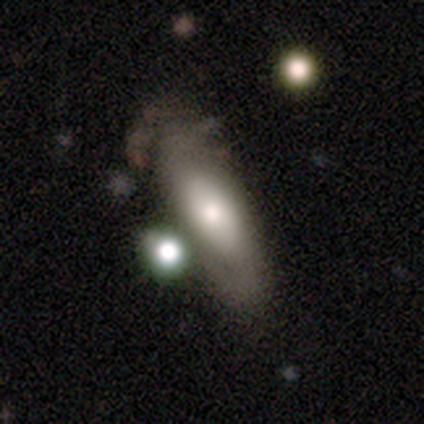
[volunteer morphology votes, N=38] Smooth or featured: smooth — 58% (featured or disk — 37%)
How rounded: in between — 59% (cigar-shaped — 41%)
Merging: none — 33% (tied with merger — 33%)